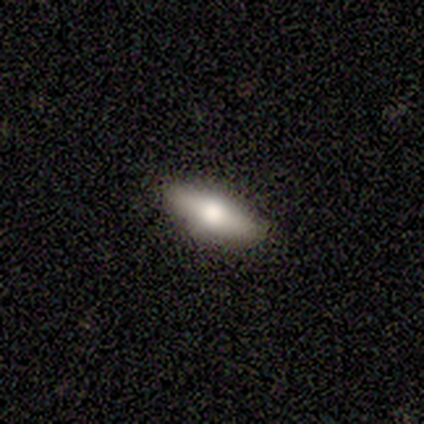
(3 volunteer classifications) This appears to be a featured or disk galaxy (67%) viewed edge-on (100%) with a rounded central bulge (100%). Merging: none (100%).